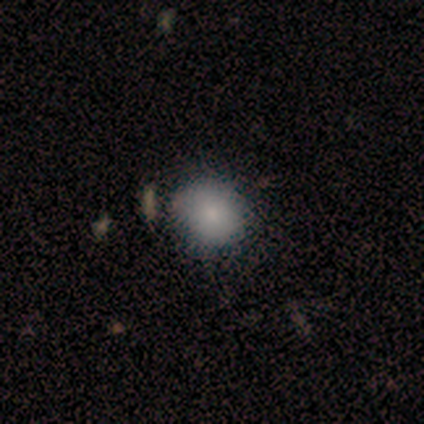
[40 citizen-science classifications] A smooth galaxy with no disk features (78%) that is round (90%). Merging: none (88%).